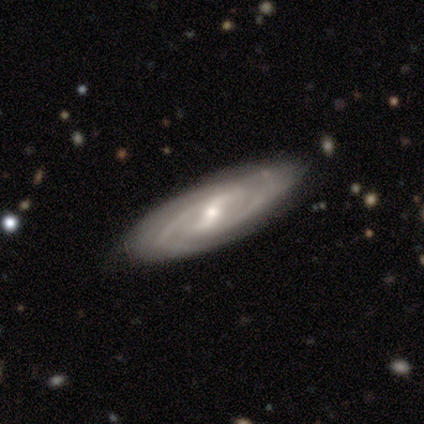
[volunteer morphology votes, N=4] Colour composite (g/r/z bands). It shows a featured or disk galaxy (75%) with a strong bar (100%), 2 (67%) medium (67%) spiral arms (100%) and a small central bulge (100%). Merging: none (100%).